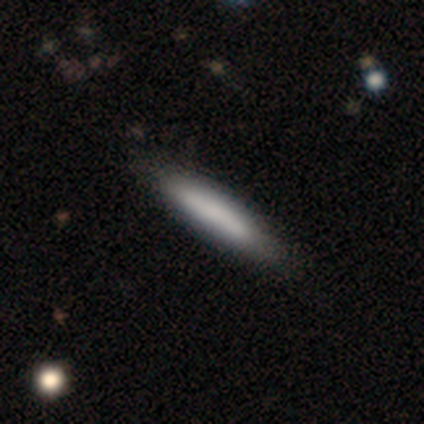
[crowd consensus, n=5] Smooth or featured? smooth (60%)
How rounded? cigar-shaped (67%)
Merging? none (100%)